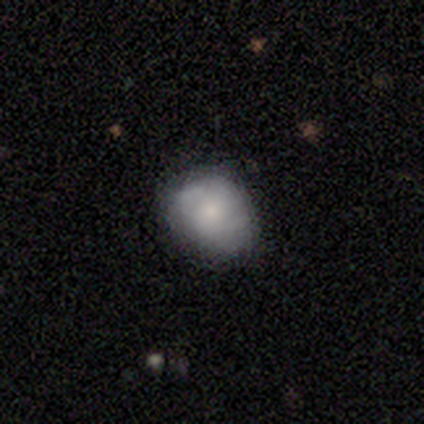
smooth 60%, featured or disk 40%, star or artifact 0%. Down the decision tree: how rounded — round (67%); merging — none (60%).